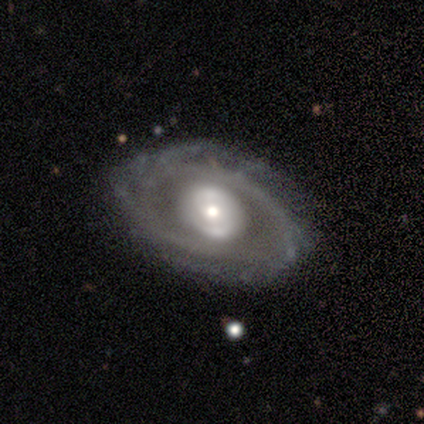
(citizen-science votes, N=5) A featured or disk galaxy (100%) with no bar (60%), 2 (80%) tight (60%) spiral arms (100%) and a large central bulge (40%, tied with moderate).

Vote fractions:
- Smooth or featured? featured or disk: 100% / smooth: 0% / star or artifact: 0%
- Edge-on disk? no: 100% / yes: 0%
- Bar? no: 60% / weak: 40% / strong: 0%
- Spiral arms? yes: 100% / no: 0%
- Spiral winding? tight: 60% / medium: 40% / loose: 0%
- Spiral arm count? 2: 80% / 3: 20% / 1: 0% / 4: 0% / more than 4: 0% / can't tell: 0%
- Bulge size? large: 40% (tied) / moderate: 40% (tied) / small: 20% / dominant: 0% / none: 0%
- Merging? none: 80% / minor disturbance: 20% / major disturbance: 0% / merger: 0%